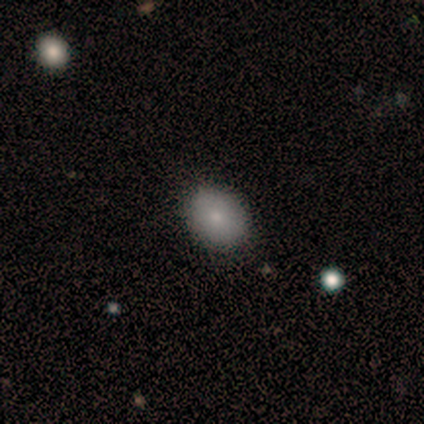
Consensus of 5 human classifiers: smooth 80%, star or artifact 20%, featured or disk 0%. Down the decision tree: how rounded — in between (75%); merging — none (75%).